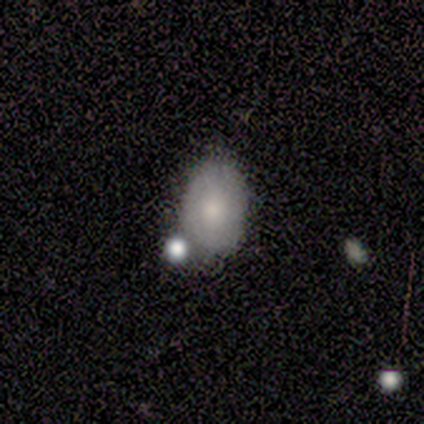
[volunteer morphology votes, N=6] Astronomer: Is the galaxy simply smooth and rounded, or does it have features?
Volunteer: smooth — 67%.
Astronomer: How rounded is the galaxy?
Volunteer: in between — 100%.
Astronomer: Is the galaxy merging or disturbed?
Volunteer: none — 80%.